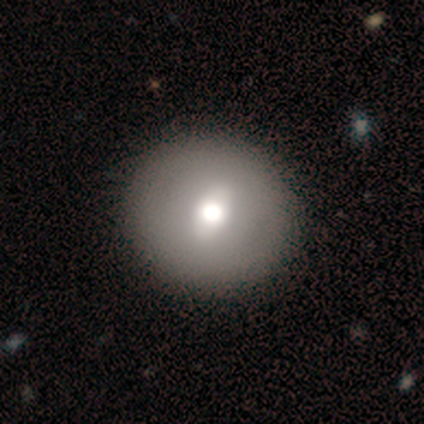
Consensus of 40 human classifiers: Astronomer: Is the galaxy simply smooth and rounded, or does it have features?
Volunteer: smooth — 68%.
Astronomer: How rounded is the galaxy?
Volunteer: round — 100%.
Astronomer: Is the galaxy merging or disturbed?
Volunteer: none — 66%.